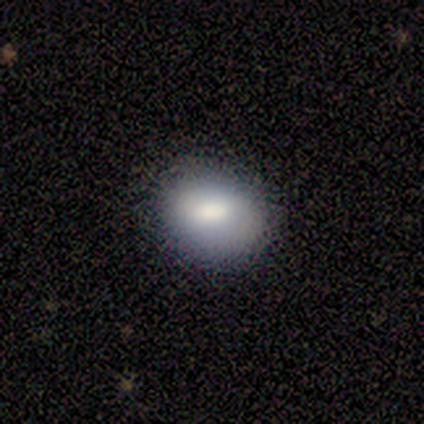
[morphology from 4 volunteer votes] Volunteers were most divided on "merging": none: 50%, minor disturbance: 25%, major disturbance: 25%, merger: 0%. More confident: smooth or featured — smooth (100%); how rounded — in between (75%).